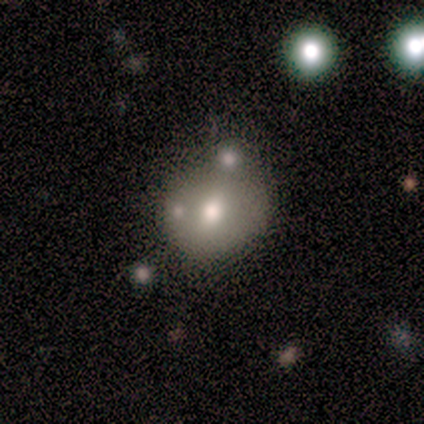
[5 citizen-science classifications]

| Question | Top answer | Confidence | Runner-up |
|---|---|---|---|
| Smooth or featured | smooth | 60% | featured or disk (40%) |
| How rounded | round | 100% | — |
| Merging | none | 60% | minor disturbance (20%) |